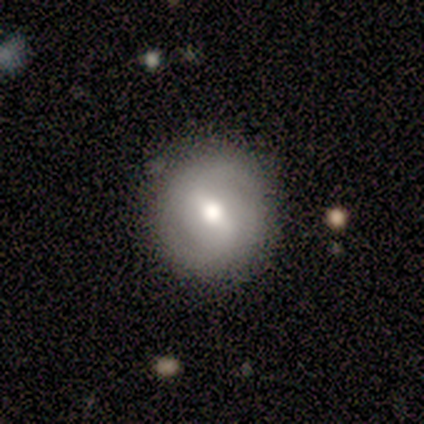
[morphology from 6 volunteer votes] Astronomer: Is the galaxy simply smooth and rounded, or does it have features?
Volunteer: smooth — 67%.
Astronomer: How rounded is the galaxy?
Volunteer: round — 100%.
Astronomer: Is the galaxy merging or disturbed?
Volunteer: none — 83%.